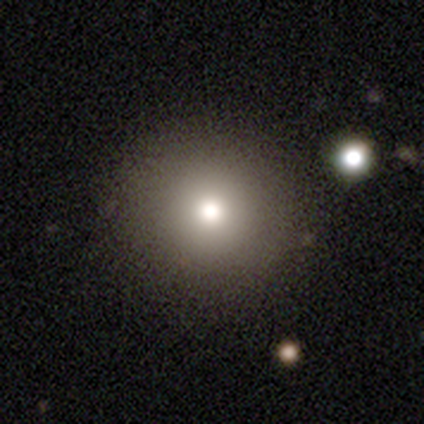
Smooth or featured: smooth — 84% (star or artifact — 13%)
How rounded: round — 100%
Merging: none — 94% (minor disturbance — 3%)